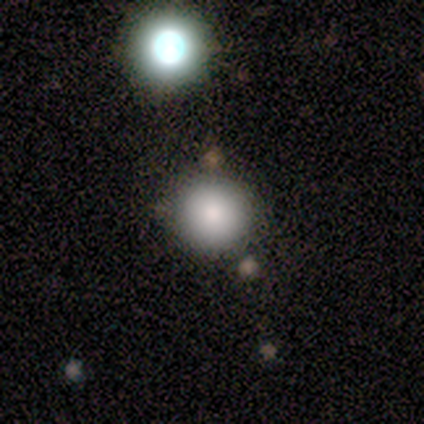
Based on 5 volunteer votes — Q: Smooth or featured?
A: smooth (60%); runner-up: star or artifact (40%)
Q: How rounded?
A: round (100%)
Q: Merging?
A: none (100%)